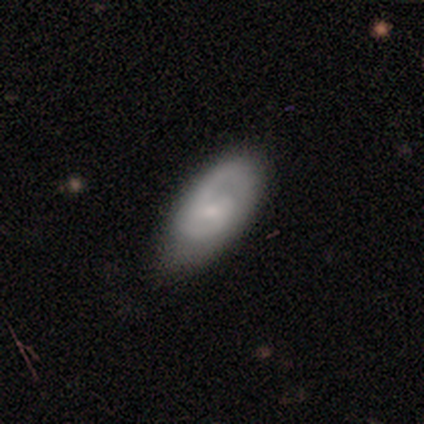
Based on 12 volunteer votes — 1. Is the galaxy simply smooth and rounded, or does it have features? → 75% featured or disk, 25% smooth, 0% star or artifact.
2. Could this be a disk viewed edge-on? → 89% no, 11% yes.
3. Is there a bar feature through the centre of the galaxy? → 75% no, 12% strong, 12% weak.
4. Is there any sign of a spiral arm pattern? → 100% yes, 0% no.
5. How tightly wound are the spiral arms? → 50% medium, 25% tight, 25% loose.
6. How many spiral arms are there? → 62% 2, 38% 1, 0% 3, 0% 4, 0% more than 4, 0% can't tell.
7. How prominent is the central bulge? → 88% small, 12% none, 0% dominant, 0% large, 0% moderate.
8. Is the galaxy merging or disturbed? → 58% none, 33% minor disturbance, 8% major disturbance, 0% merger.